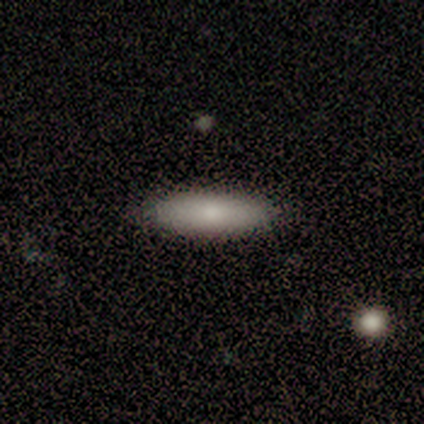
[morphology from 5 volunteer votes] A smooth galaxy with no disk features (80%) that is in between round and cigar-shaped (75%). Merging: none (80%).